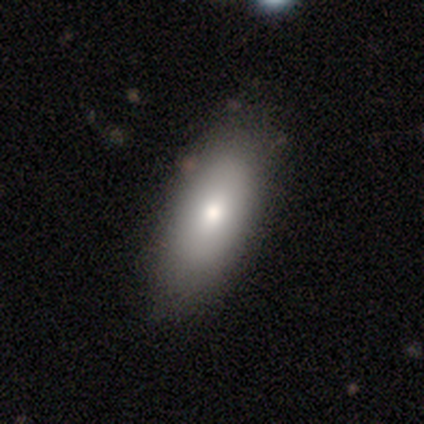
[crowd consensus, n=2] A smooth galaxy with no disk features (100%) that is in between round and cigar-shaped (100%).

Vote fractions:
- Smooth or featured? smooth: 100% / featured or disk: 0% / star or artifact: 0%
- How rounded? in between: 100% / round: 0% / cigar-shaped: 0%
- Merging? none: 100% / minor disturbance: 0% / major disturbance: 0% / merger: 0%